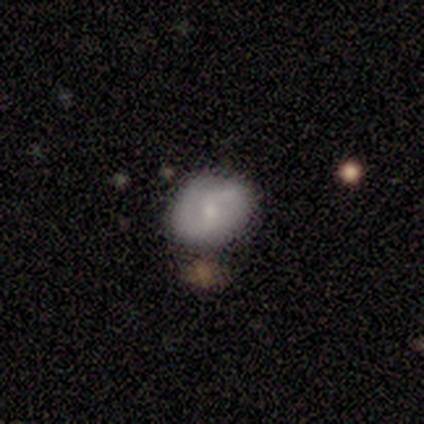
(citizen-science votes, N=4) Morphology: type=featured or disk (50%); edge-on=no (100%); bar=no (100%); spiral arms=yes (100%); winding=tight (50%, tied with loose); arm count=2 (100%); bulge=moderate (50%, tied with small); merging=none (67%).